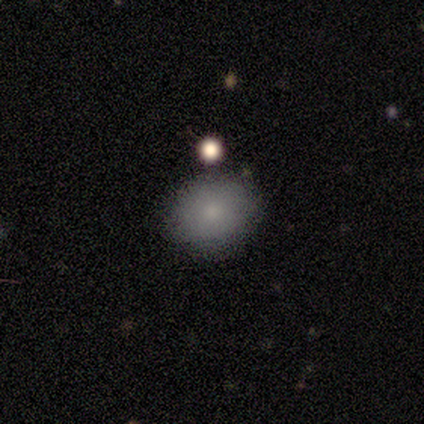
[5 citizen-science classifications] Morphology: type=smooth (60%); roundness=round (100%); merging=none (40%, tied with minor disturbance).